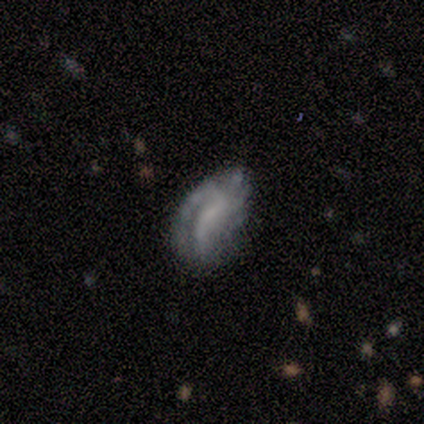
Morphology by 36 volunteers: Smooth or featured: featured or disk — 58% (smooth — 28%)
Edge-on disk: no — 86% (yes — 14%)
Bar: no — 44% (weak — 39%)
Spiral arms: no — 67% (yes — 33%)
Bulge size: none — 67% (small — 28%)
Merging: none — 42% (minor disturbance — 35%)